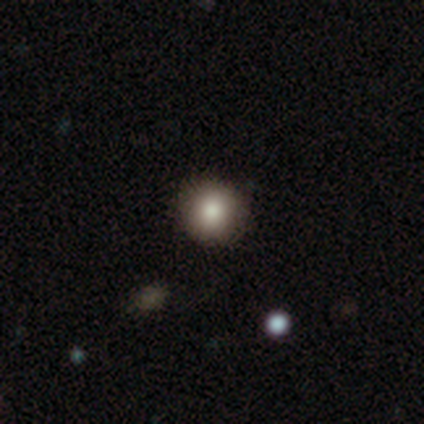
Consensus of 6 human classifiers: Overall: smooth (100%). How rounded: round (100%). Merging: none (83%).